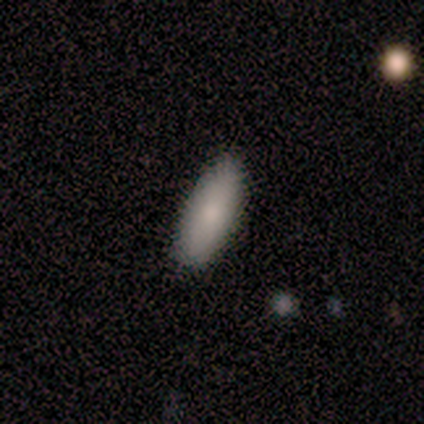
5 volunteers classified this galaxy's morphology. smooth 80%, star or artifact 20%, featured or disk 0%. Down the decision tree: how rounded — in between (100%); merging — none (100%).